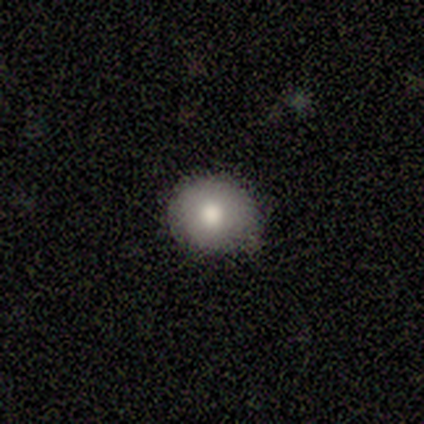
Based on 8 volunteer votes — smooth_or_featured: smooth (p=0.88) [alt: star or artifact p=0.12]
how_rounded: round (p=0.86) [alt: in between p=0.14]
merging: none (p=1.00)